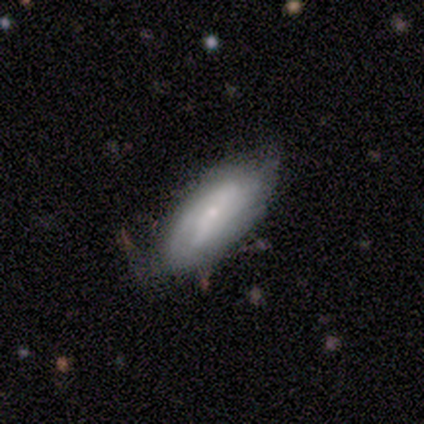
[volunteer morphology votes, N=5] This is clearly a featured or disk galaxy (100%). It is clearly not viewed edge-on (100%). Bar: likely weak (60%). Spiral arm pattern: clearly yes (80%). Spiral arm count: likely 2 (75%). Spiral winding: possibly medium (50%). Central bulge: clearly small (80%). Merging: likely none (60%).